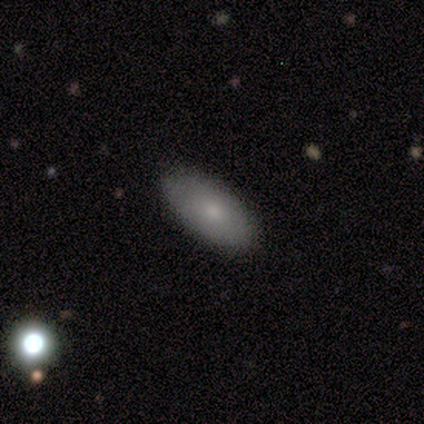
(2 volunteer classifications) Smooth or featured? 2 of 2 (100%) said smooth. How rounded? 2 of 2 (100%) said in between. Merging? 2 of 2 (100%) said none.